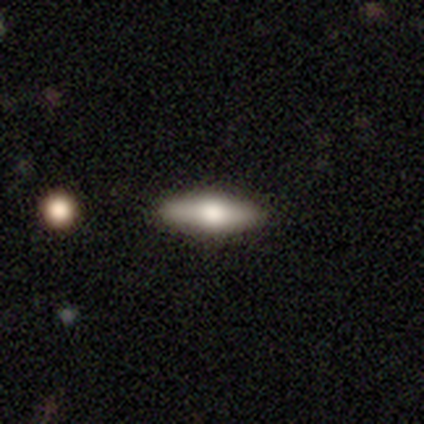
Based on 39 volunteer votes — Smooth or featured: featured or disk — 56% (smooth — 44%)
Edge-on disk: yes — 95% (no — 5%)
Edge-on bulge: rounded — 95% (boxy — 5%)
Merging: none — 64% (minor disturbance — 3%)